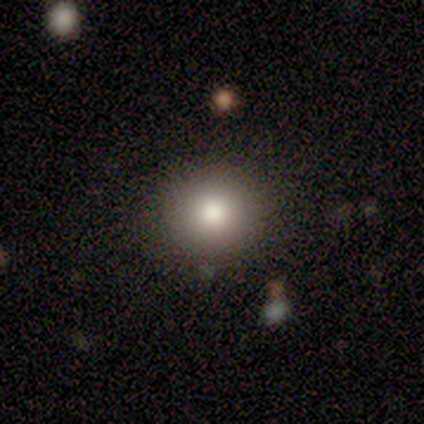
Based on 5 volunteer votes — smooth-or-featured: smooth: 100% | featured or disk: 0% | star or artifact: 0%
  how-rounded: round: 80% | in between: 20% | cigar-shaped: 0%
  merging: none: 100% | minor disturbance: 0% | major disturbance: 0% | merger: 0%